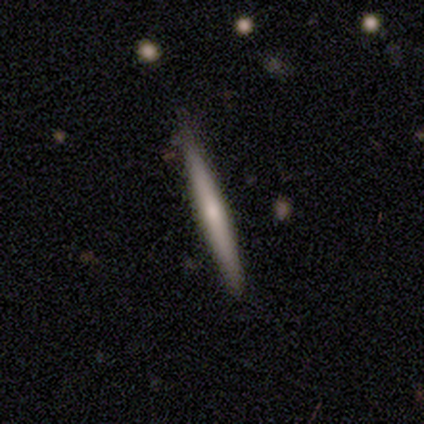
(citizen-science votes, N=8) Volunteers were most divided on "smooth or featured": featured or disk: 50%, smooth: 38%, star or artifact: 12%. More confident: edge-on bulge — none (100%); edge-on disk — yes (75%); merging — none (57%).